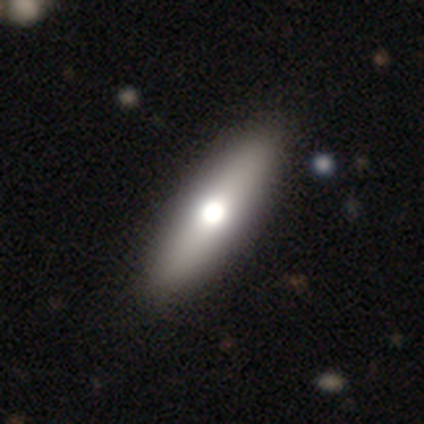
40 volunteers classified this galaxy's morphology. Volunteers were most divided on "how rounded": cigar-shaped: 52%, in between: 48%, round: 0%. More confident: smooth or featured — smooth (62%); merging — none (57%).